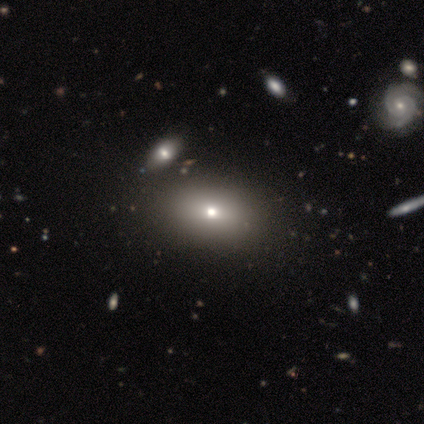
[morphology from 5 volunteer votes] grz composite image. It shows a smooth galaxy with no disk features (100%) that is in between round and cigar-shaped (60%). Merging: none (100%).